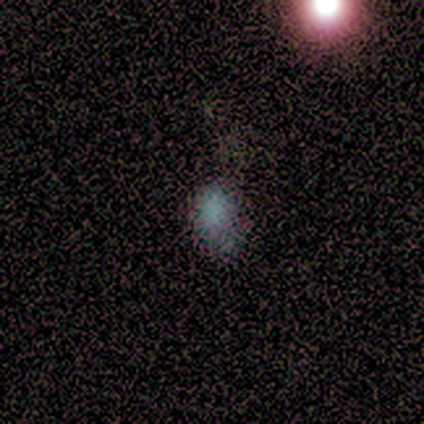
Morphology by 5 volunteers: Smooth or featured: smooth — 80% (star or artifact — 20%)
How rounded: round — 50% (tied with in between — 50%)
Merging: none — 75% (minor disturbance — 25%)